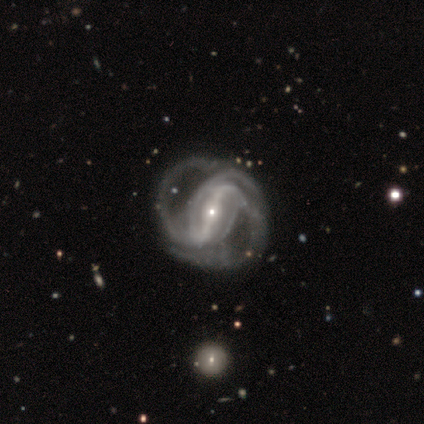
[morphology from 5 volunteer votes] Q: Smooth or featured?
A: featured or disk (100%)
Q: Edge-on disk?
A: no (100%)
Q: Bar?
A: strong (100%)
Q: Spiral arms?
A: yes (100%)
Q: Spiral winding?
A: medium (40%); tied with: loose (40%)
Q: Spiral arm count?
A: 2 (80%); runner-up: 3 (20%)
Q: Bulge size?
A: small (80%); runner-up: large (20%)
Q: Merging?
A: none (60%); runner-up: major disturbance (20%)